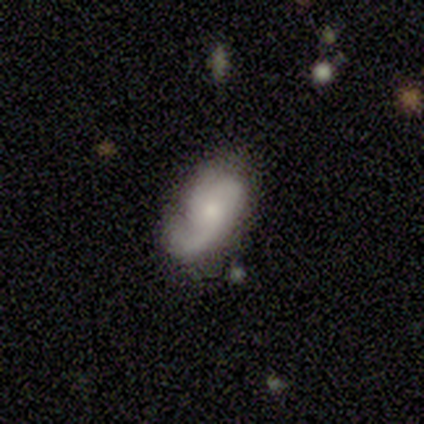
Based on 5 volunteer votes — This appears to be a smooth galaxy with no disk features (40%, tied with featured or disk) that is in between round and cigar-shaped (100%). Merging: none (50%).